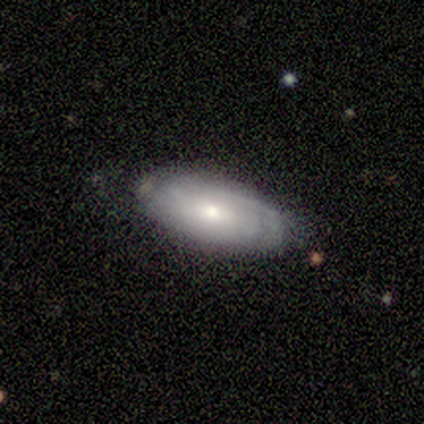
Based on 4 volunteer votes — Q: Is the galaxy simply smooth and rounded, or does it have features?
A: featured or disk — 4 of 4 (100%).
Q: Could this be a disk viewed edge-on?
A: no — 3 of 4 (75%).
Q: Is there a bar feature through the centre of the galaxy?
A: no — 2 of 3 (67%).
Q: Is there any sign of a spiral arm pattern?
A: yes — 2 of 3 (67%).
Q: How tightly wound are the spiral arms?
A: tight — 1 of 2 (50%, tied with medium).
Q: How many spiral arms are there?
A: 4 — 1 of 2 (50%, tied with can't tell).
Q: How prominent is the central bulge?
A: small — 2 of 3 (67%).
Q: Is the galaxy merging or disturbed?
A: none — 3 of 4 (75%).